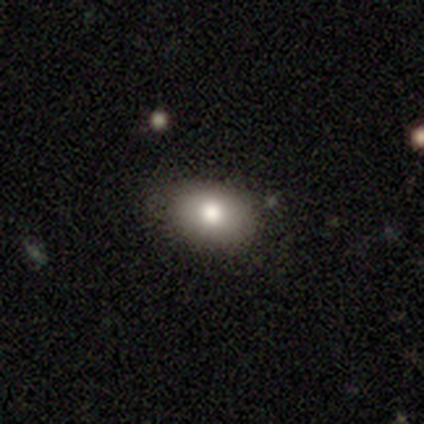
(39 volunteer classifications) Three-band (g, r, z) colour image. It shows a smooth galaxy with no disk features (87%) that is in between round and cigar-shaped (82%). Merging: none (82%).